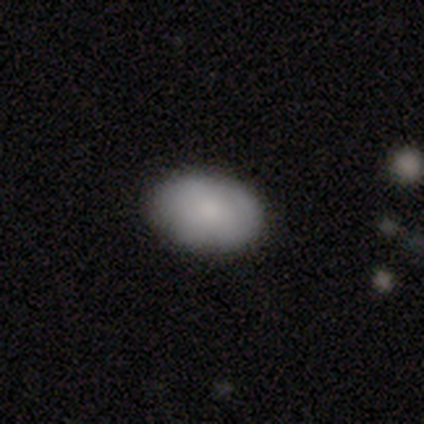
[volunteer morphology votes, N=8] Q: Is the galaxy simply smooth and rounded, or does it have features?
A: smooth — 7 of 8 (88%).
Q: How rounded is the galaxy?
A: in between — 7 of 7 (100%).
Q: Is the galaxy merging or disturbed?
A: none — 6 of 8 (75%).